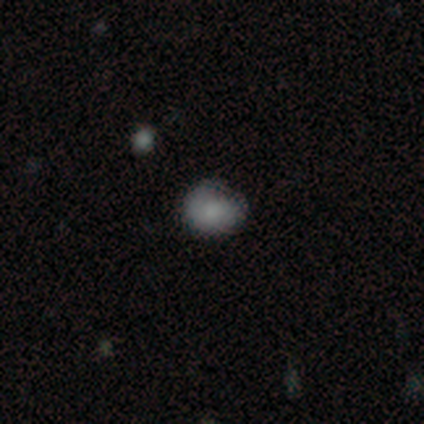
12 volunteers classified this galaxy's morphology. A smooth galaxy with no disk features (92%) that is round (82%).

Vote fractions:
- Smooth or featured? smooth: 92% / featured or disk: 8% / star or artifact: 0%
- How rounded? round: 82% / in between: 18% / cigar-shaped: 0%
- Merging? none: 67% / minor disturbance: 33% / major disturbance: 0% / merger: 0%